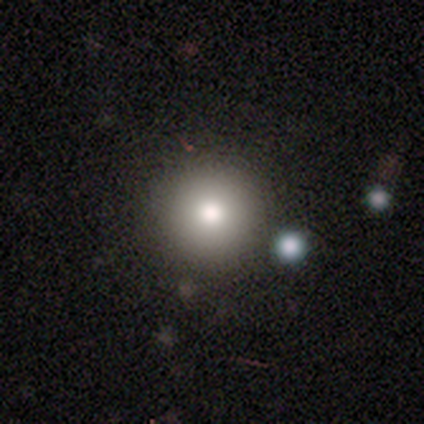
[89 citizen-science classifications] Smooth or featured? 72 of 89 (81%) said smooth. How rounded? 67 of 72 (93%) said round. Merging? 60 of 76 (79%) said none.